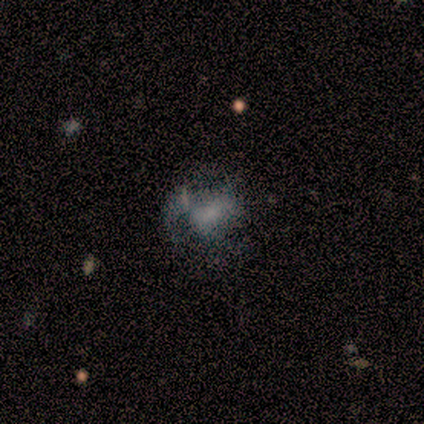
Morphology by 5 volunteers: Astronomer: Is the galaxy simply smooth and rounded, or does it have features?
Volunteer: smooth — 40%, tied with star or artifact at 40%.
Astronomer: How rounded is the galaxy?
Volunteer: in between — 100%.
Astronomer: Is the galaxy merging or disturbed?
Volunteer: major disturbance — 67%.